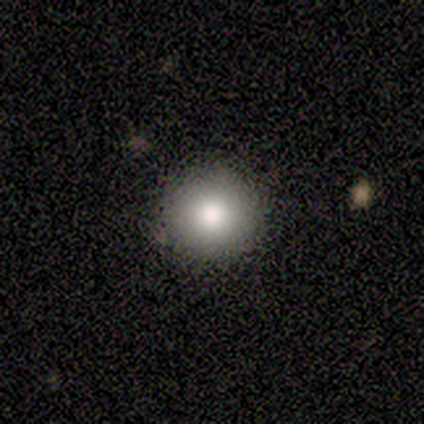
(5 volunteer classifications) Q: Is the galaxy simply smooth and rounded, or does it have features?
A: smooth — 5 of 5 (100%).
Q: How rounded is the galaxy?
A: round — 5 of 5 (100%).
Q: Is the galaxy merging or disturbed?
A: none — 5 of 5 (100%).